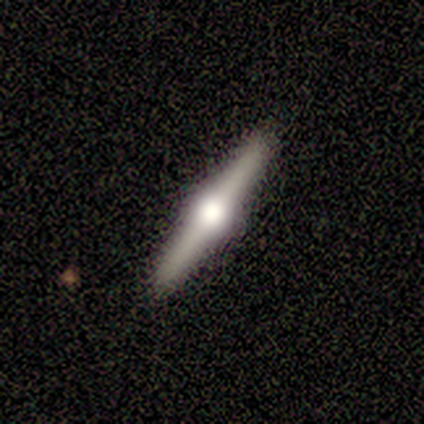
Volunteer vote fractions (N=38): Overall: featured or disk (84%). Edge-on disk: yes (100%). Edge-on bulge: rounded (100%). Merging: none (95%).